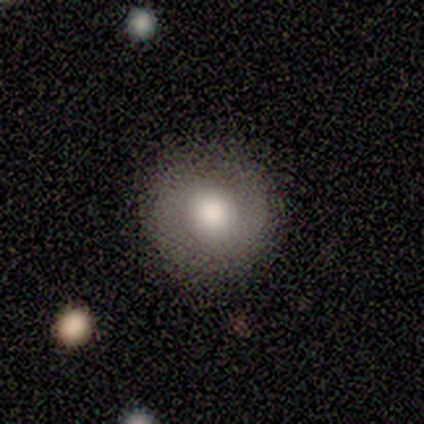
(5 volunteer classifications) Overall: smooth (100%). How rounded: round (100%). Merging: none (100%).